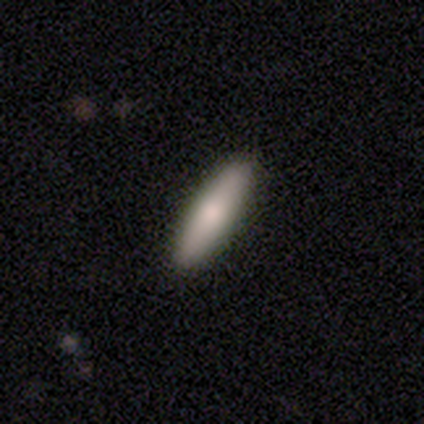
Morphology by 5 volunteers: A smooth galaxy with no disk features (80%) that is cigar-shaped (75%). Merging: none (100%).